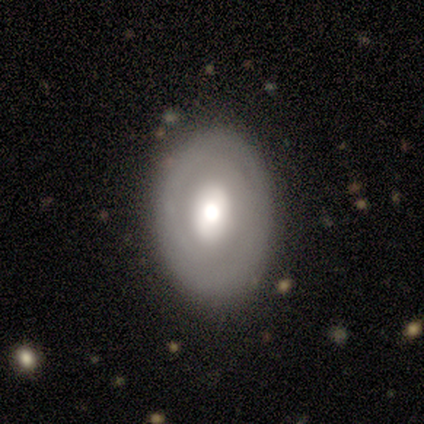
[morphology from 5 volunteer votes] type=featured or disk (80%); edge-on=no (100%); bar=weak (50%); spiral arms=yes (50%, tied with no); winding=tight (100%); arm count=can't tell (100%); bulge=large (50%); merging=none (60%).